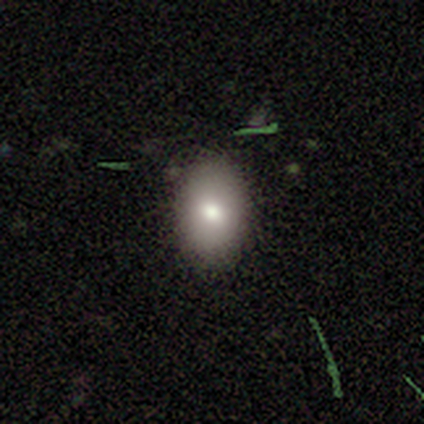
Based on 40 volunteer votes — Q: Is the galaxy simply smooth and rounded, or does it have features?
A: smooth — 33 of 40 (82%).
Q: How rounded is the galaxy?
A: in between — 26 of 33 (79%).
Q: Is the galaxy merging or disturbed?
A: none — 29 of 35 (83%).